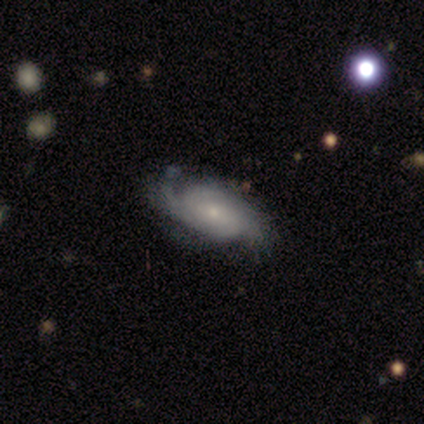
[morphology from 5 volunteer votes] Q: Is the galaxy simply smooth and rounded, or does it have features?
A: featured or disk — 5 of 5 (100%).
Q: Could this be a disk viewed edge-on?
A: no — 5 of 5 (100%).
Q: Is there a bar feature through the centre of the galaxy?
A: no — 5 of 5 (100%).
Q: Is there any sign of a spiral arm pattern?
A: yes — 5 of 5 (100%).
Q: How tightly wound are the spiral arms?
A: tight — 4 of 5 (80%).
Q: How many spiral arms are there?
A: can't tell — 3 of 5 (60%).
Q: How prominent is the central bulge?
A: moderate — 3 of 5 (60%).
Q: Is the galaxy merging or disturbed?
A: none — 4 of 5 (80%).